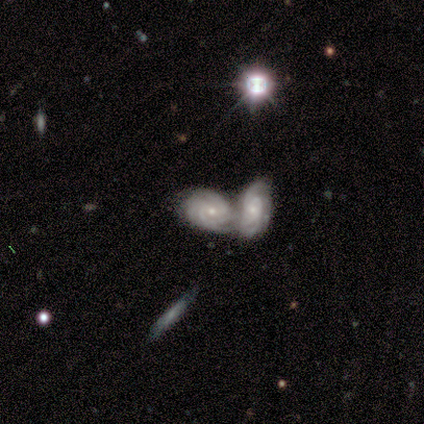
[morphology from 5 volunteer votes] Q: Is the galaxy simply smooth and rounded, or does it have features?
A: featured or disk — 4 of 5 (80%).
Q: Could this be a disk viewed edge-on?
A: no — 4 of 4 (100%).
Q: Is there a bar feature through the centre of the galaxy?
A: no — 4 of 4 (100%).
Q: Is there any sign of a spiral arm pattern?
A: yes — 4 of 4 (100%).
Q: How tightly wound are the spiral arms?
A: tight — 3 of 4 (75%).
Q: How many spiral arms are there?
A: can't tell — 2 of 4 (50%).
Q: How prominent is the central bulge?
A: small — 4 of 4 (100%).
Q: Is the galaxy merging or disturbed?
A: merger — 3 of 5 (60%).